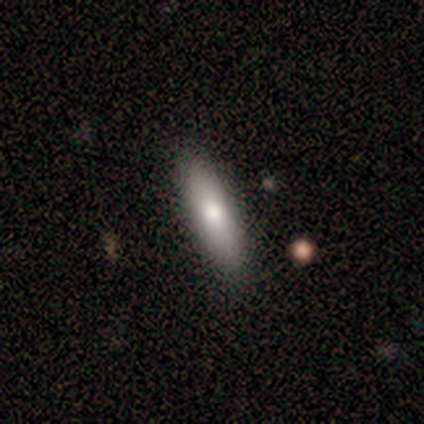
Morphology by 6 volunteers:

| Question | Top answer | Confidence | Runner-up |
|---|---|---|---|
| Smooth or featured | smooth | 83% | featured or disk (17%) |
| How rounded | cigar-shaped | 60% | in between (40%) |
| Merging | none | 100% | — |